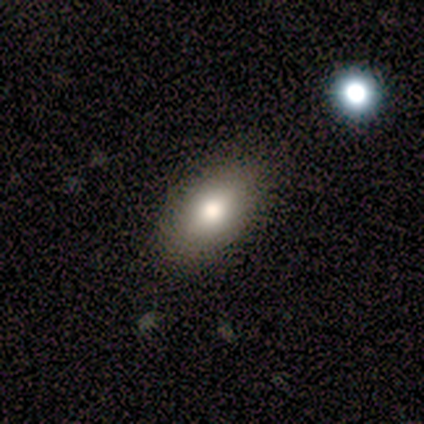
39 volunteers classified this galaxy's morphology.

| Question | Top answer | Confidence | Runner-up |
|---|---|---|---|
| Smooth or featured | smooth | 72% | featured or disk (21%) |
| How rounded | in between | 86% | round (11%) |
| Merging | none | 89% | minor disturbance (11%) |